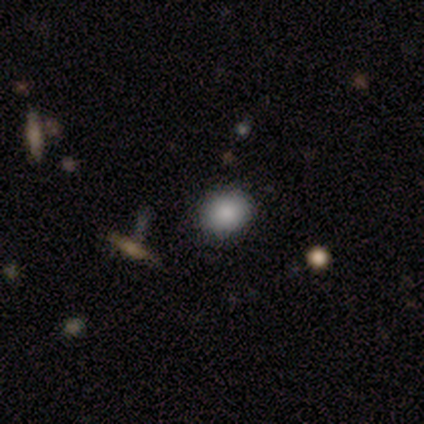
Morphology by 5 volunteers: Smooth or featured? smooth (80%)
How rounded? round (75%)
Merging? none (60%)